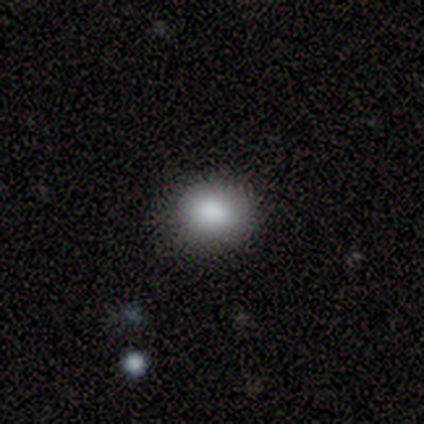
Volunteers were most divided on "merging": none: 60%, minor disturbance: 40%, major disturbance: 0%, merger: 0%. More confident: smooth or featured — smooth (100%); how rounded — in between (80%).